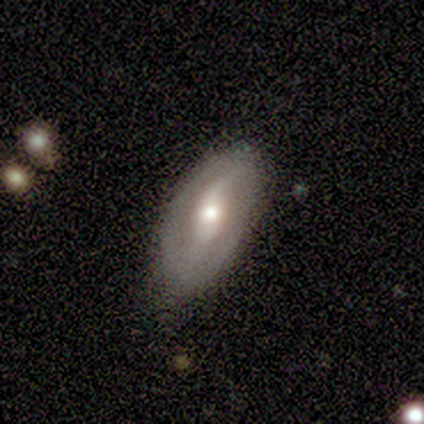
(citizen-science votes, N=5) Smooth or featured? featured or disk (100%)
Edge-on disk? no (80%)
Bar? weak (75%)
Spiral arms? yes (50%, tied with no)
Spiral winding? tight (50%, tied with loose)
Spiral arm count? 2 (100%)
Bulge size? moderate (75%)
Merging? none (100%)